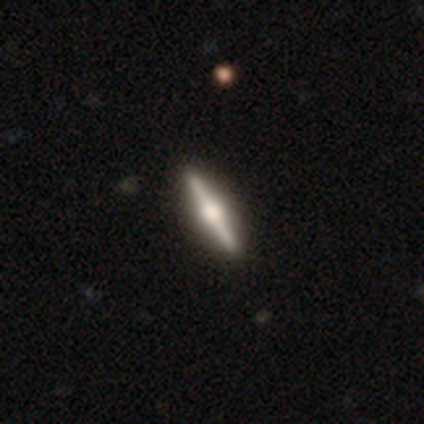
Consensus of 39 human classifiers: Q: Smooth or featured?
A: featured or disk (85%); runner-up: smooth (13%)
Q: Edge-on disk?
A: yes (97%); runner-up: no (3%)
Q: Edge-on bulge?
A: rounded (94%); runner-up: boxy (6%)
Q: Merging?
A: none (71%); runner-up: minor disturbance (3%)